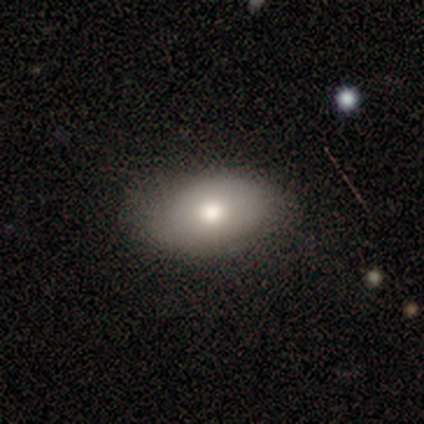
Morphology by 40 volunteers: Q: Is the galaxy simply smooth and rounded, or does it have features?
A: smooth — 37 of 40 (92%).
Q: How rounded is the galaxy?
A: in between — 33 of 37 (89%).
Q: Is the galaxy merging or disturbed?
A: none — 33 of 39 (85%).